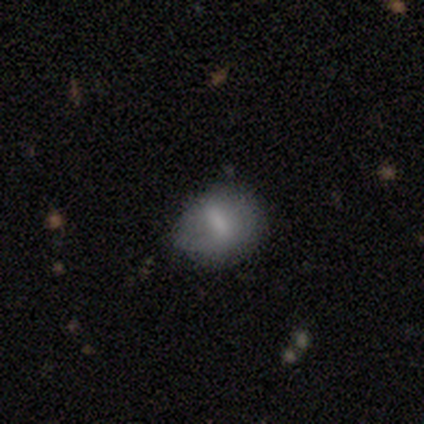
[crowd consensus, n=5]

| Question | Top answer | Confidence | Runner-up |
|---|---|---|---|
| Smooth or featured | smooth | 60% | featured or disk (20%) |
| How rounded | in between | 100% | — |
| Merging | none | 100% | — |